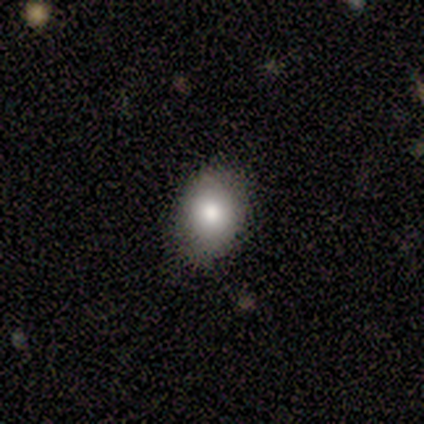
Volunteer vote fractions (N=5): Smooth or featured: smooth — 80% (star or artifact — 20%)
How rounded: in between — 100%
Merging: none — 100%